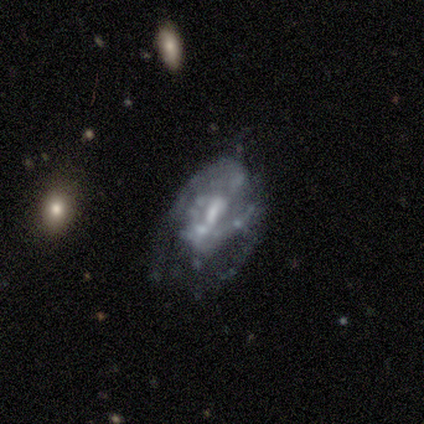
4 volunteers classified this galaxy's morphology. type=featured or disk (100%); edge-on=no (100%); bar=strong (50%); spiral arms=no (75%); bulge=small (50%); merging=major disturbance (75%).